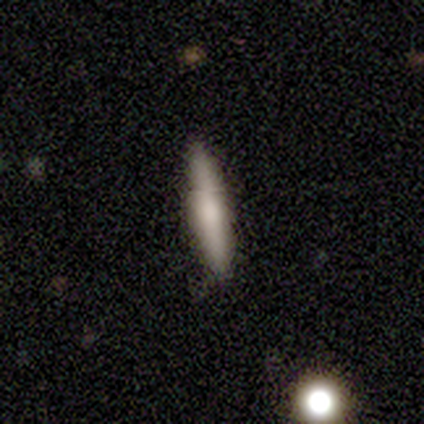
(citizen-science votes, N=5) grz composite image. It shows a smooth galaxy with no disk features (100%) that is cigar-shaped (80%). Merging: none (100%).